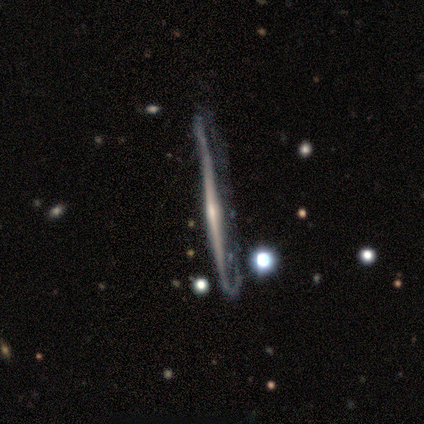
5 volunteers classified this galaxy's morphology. This is clearly a featured or disk galaxy (100%). It is clearly viewed edge-on (80%). Edge-on bulge: possibly rounded (50%). Merging: likely major disturbance (60%).